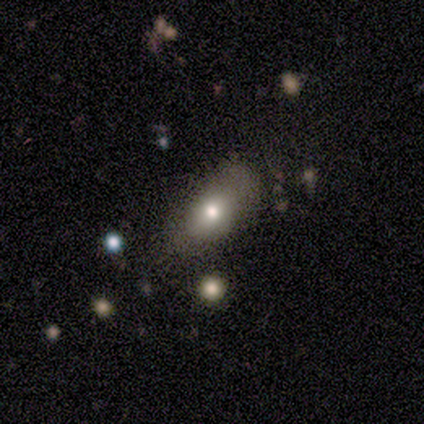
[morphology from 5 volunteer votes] A smooth galaxy with no disk features (100%) that is in between round and cigar-shaped (60%). Merging: none (60%).